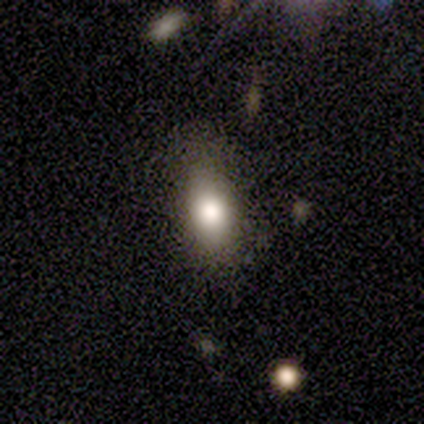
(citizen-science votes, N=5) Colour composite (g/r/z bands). It shows a smooth galaxy with no disk features (80%) that is in between round and cigar-shaped (100%). Merging: none (80%).